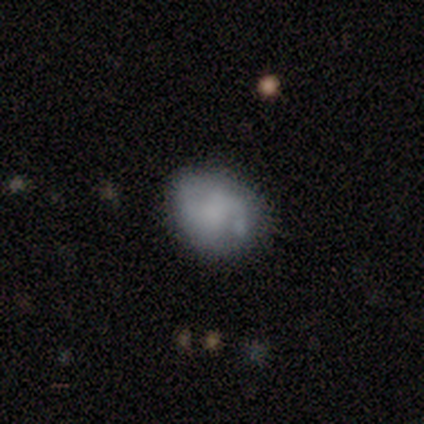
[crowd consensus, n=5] This is likely a smooth galaxy (60%). How rounded: likely round (67%). Merging: likely none (60%).